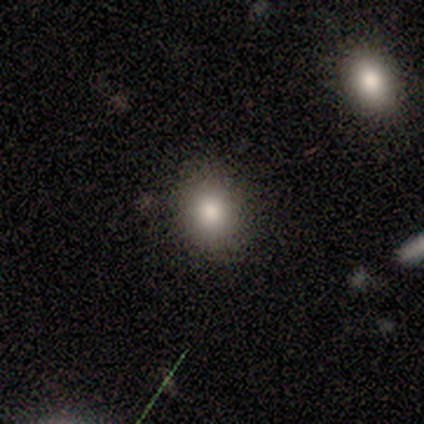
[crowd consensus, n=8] Overall: smooth (100%). How rounded: round (50%, tied with in between). Merging: none (62%; minor disturbance 38%).